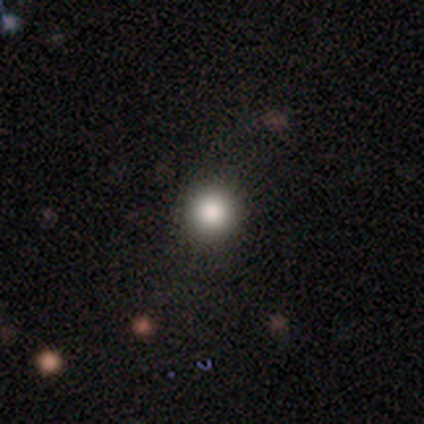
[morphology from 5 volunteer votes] smooth 80%, star or artifact 20%, featured or disk 0%. Down the decision tree: how rounded — round (100%); merging — none (100%).